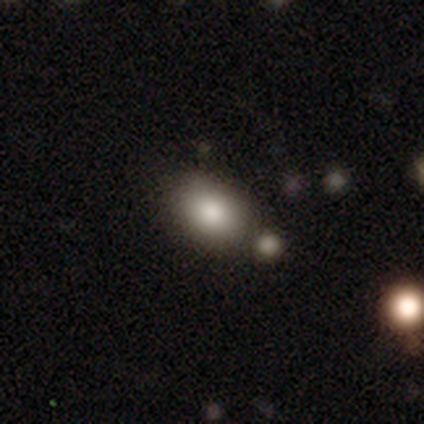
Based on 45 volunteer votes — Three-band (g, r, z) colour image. It shows a smooth galaxy with no disk features (73%) that is in between round and cigar-shaped (88%). Merging: none (60%).